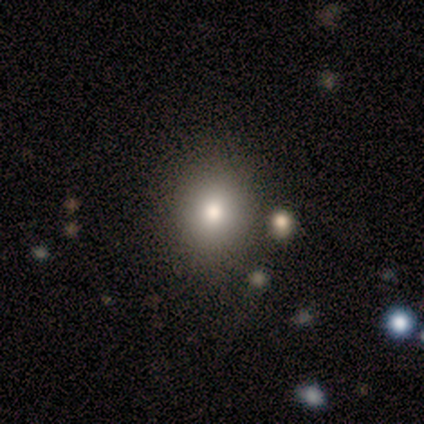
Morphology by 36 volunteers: Smooth or featured? 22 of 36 (61%) said smooth. How rounded? 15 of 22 (68%) said round. Merging? 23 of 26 (88%) said none.